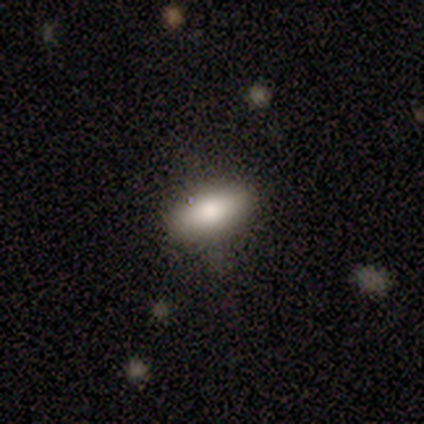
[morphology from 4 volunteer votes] This appears to be a smooth galaxy with no disk features (75%) that is in between round and cigar-shaped (100%). Merging: none (100%).